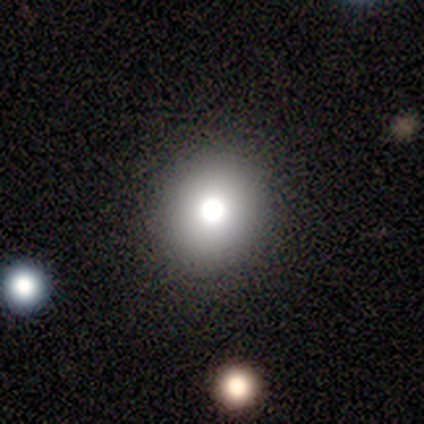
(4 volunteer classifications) This is likely a smooth galaxy (75%). How rounded: likely round (67%). Merging: clearly none (100%).